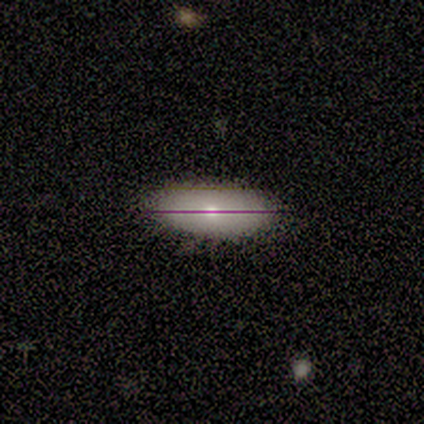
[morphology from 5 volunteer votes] Smooth or featured? smooth (60%)
How rounded? in between (100%)
Merging? none (100%)